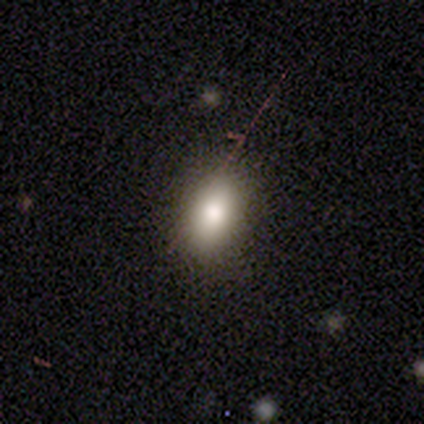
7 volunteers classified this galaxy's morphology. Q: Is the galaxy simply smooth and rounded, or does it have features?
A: smooth — 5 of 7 (71%).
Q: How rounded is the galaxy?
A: in between — 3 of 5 (60%).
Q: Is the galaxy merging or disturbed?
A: none — 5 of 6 (83%).